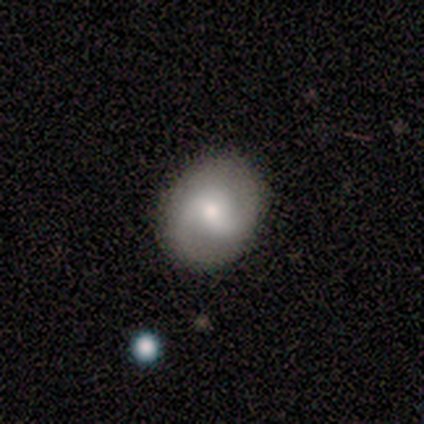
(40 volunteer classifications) Smooth or featured?
  - featured or disk: 72% *
  - smooth: 22%
  - star or artifact: 5%
Edge-on disk?
  - no: 100% *
  - yes: 0%
Bar?
  - weak: 59% *
  - no: 34%
  - strong: 7%
Spiral arms?
  - yes: 90% *
  - no: 10%
Spiral winding?
  - medium: 54% *
  - tight: 23%
  - loose: 23%
Spiral arm count?
  - 2: 88% *
  - can't tell: 12%
  - 1: 0%
  - 3: 0%
  - 4: 0%
  - more than 4: 0%
Bulge size?
  - moderate: 66% *
  - small: 21%
  - large: 14%
  - dominant: 0%
  - none: 0%
Merging?
  - none: 82% *
  - minor disturbance: 11%
  - major disturbance: 8%
  - merger: 0%